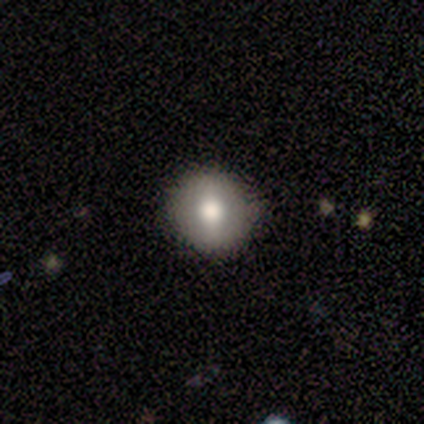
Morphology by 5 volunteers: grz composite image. It shows a featured or disk galaxy (60%) with a weak bar (67%), no spiral arms (100%) and a moderate central bulge (67%). Merging: none (100%).